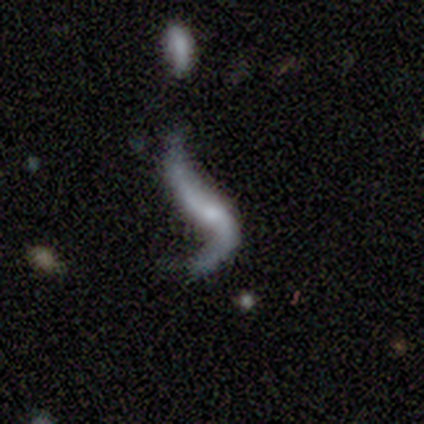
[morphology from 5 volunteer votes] A featured or disk galaxy (100%) with no bar (60%), 2 (75%) loose (100%) spiral arms (80%) and no central bulge (60%).

Vote fractions:
- Smooth or featured? featured or disk: 100% / smooth: 0% / star or artifact: 0%
- Edge-on disk? no: 100% / yes: 0%
- Bar? no: 60% / weak: 40% / strong: 0%
- Spiral arms? yes: 80% / no: 20%
- Spiral winding? loose: 100% / tight: 0% / medium: 0%
- Spiral arm count? 2: 75% / 1: 25% / 3: 0% / 4: 0% / more than 4: 0% / can't tell: 0%
- Bulge size? none: 60% / small: 40% / dominant: 0% / large: 0% / moderate: 0%
- Merging? major disturbance: 80% / none: 20% / minor disturbance: 0% / merger: 0%